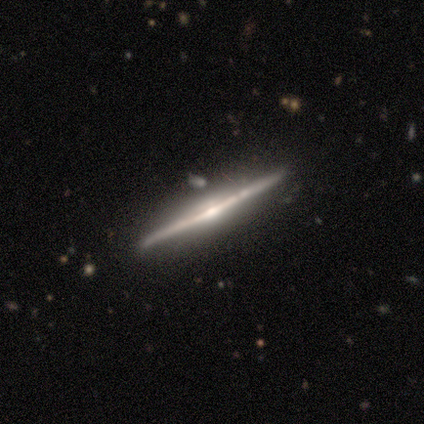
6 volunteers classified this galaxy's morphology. smooth_or_featured: featured or disk (p=0.83) [alt: smooth p=0.17]
disk_edge_on: yes (p=1.00)
edge_on_bulge: rounded (p=0.80) [alt: none p=0.20]
merging: none (p=1.00)